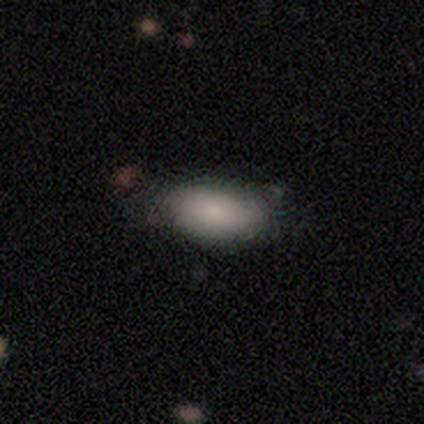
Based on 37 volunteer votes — Smooth or featured? smooth (86%)
How rounded? in between (91%)
Merging? none (74%)